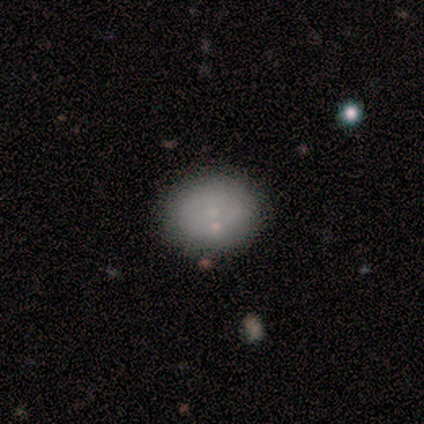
smooth-or-featured: smooth: 57% | featured or disk: 36% | star or artifact: 7%
  how-rounded: in between: 75% | round: 25% | cigar-shaped: 0%
  merging: none: 85% | minor disturbance: 8% | merger: 8% | major disturbance: 0%